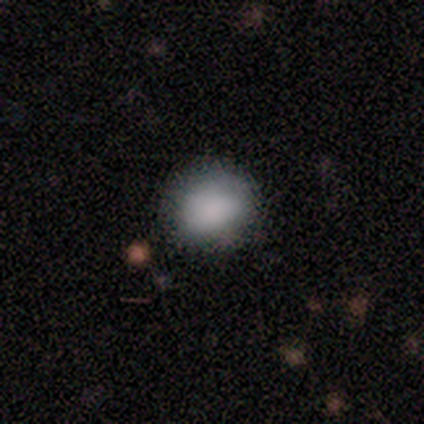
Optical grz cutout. It shows a smooth galaxy with no disk features (100%) that is round (100%). Merging: none (100%).